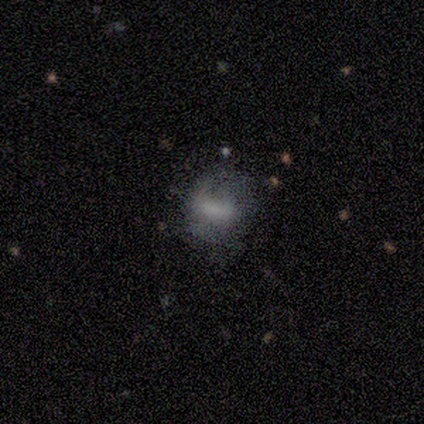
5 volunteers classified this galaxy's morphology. smooth_or_featured: featured or disk (p=1.00)
disk_edge_on: no (p=1.00)
bar: weak (p=0.80) [alt: no p=0.20]
has_spiral_arms: yes (p=0.80) [alt: no p=0.20]
spiral_winding: medium (p=0.50) [tied with: loose p=0.50]
spiral_arm_count: can't tell (p=0.50) [alt: 2 p=0.25]
bulge_size: dominant (p=0.20) [tied with: large p=0.20, moderate p=0.20, small p=0.20, none p=0.20]
merging: none (p=0.60) [alt: minor disturbance p=0.20]